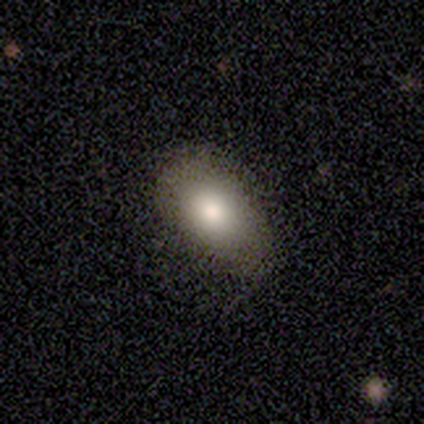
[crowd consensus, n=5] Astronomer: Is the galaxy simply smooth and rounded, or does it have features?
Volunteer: smooth — 80%.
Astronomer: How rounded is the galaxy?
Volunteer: in between — 100%.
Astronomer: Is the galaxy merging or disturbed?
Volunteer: none — 80%.